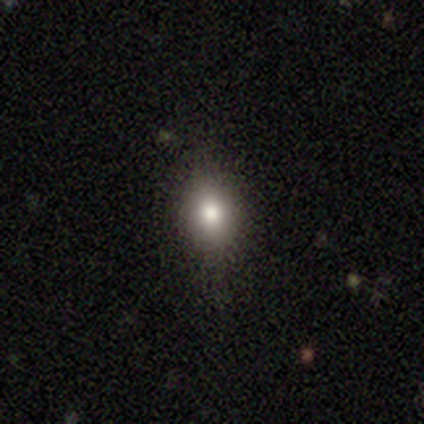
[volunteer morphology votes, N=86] Volunteers were most divided on "how rounded": in between: 65%, round: 34%, cigar-shaped: 2%. More confident: merging — none (80%); smooth or featured — smooth (72%).